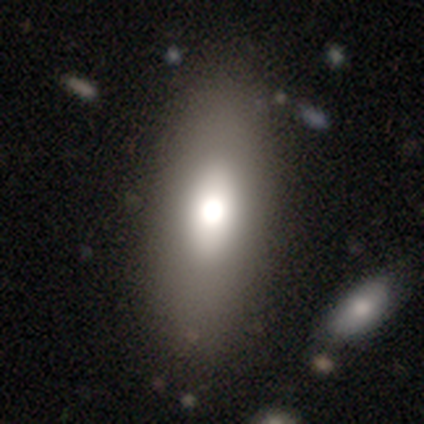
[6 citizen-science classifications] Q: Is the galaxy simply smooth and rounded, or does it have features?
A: smooth — 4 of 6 (67%).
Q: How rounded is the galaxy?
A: in between — 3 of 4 (75%).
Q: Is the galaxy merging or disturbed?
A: none — 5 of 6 (83%).